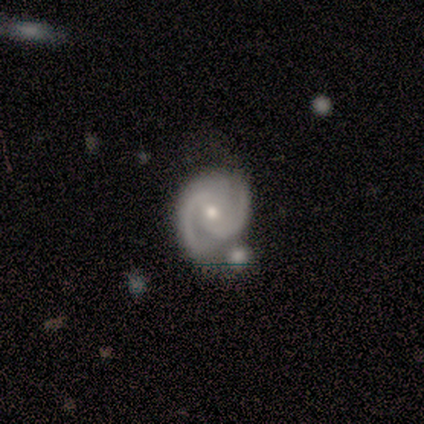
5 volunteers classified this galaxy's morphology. smooth_or_featured: featured or disk (p=1.00)
disk_edge_on: no (p=1.00)
bar: no (p=1.00)
has_spiral_arms: yes (p=1.00)
spiral_winding: tight (p=0.60) [alt: medium p=0.40]
spiral_arm_count: 2 (p=1.00)
bulge_size: moderate (p=0.80) [alt: small p=0.20]
merging: none (p=0.80) [alt: merger p=0.20]